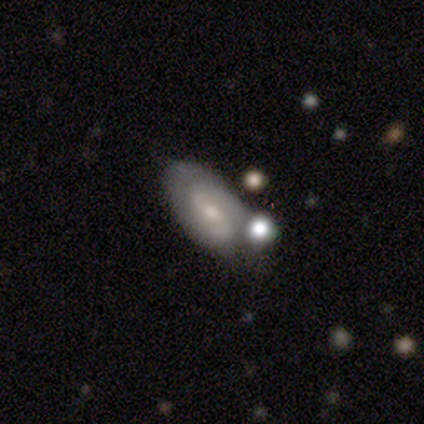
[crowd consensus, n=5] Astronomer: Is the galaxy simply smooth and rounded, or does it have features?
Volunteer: featured or disk — 60%.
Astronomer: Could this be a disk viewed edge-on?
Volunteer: no — 100%.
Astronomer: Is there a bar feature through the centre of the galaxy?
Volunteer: weak — 67%.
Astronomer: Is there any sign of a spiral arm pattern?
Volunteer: yes — 100%.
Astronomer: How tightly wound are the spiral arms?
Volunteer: medium — 67%.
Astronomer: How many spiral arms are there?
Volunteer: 2 — 100%.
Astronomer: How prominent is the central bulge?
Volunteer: small — 67%.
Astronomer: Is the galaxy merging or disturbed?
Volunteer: none — 75%.